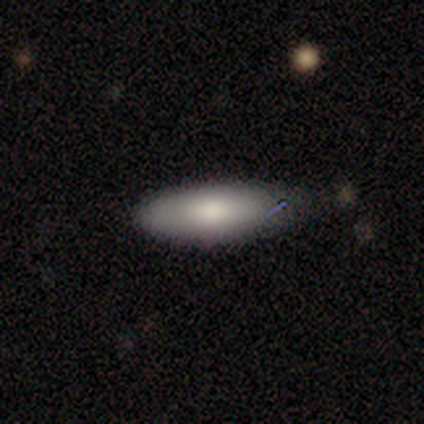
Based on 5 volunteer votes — This appears to be a smooth galaxy with no disk features (60%) that is in between round and cigar-shaped (100%). Merging: minor disturbance (80%).